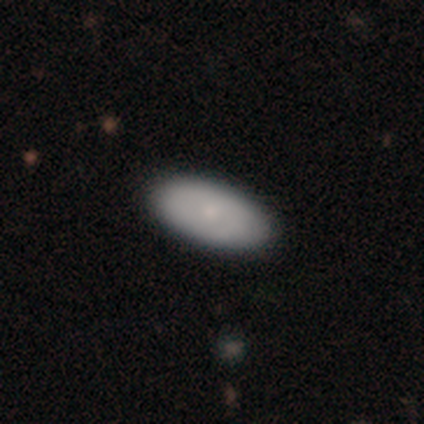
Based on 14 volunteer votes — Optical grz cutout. It shows a smooth galaxy with no disk features (86%) that is in between round and cigar-shaped (100%). Merging: none (86%).